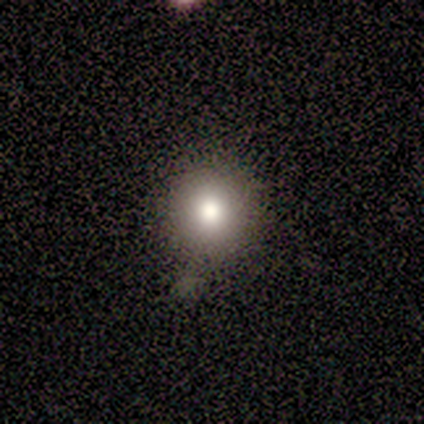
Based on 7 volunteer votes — Smooth or featured: smooth — 86% (featured or disk — 14%)
How rounded: round — 83% (in between — 17%)
Merging: none — 71% (minor disturbance — 14%)